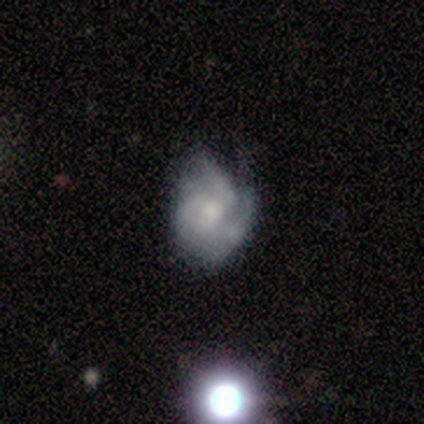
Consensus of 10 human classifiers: smooth_or_featured: featured or disk (p=0.50) [alt: smooth p=0.40]
disk_edge_on: no (p=1.00)
bar: no (p=1.00)
has_spiral_arms: yes (p=0.80) [alt: no p=0.20]
spiral_winding: tight (p=0.75) [alt: medium p=0.25]
spiral_arm_count: 3 (p=0.75) [alt: can't tell p=0.25]
bulge_size: moderate (p=0.80) [alt: none p=0.20]
merging: none (p=0.56) [alt: minor disturbance p=0.33]